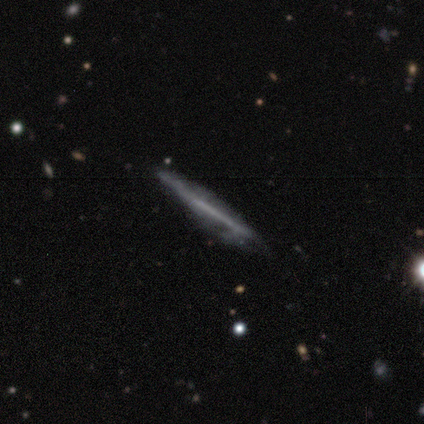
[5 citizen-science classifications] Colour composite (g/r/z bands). It shows a featured or disk galaxy (60%) viewed edge-on (100%) with no central bulge (100%). Merging: none (75%).